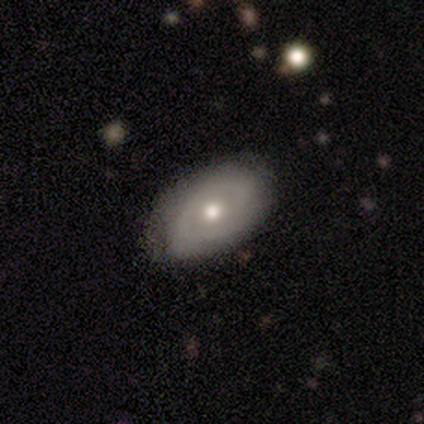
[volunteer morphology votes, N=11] A featured or disk galaxy (55%) with no bar (100%), 2 (33%, tied with 3 and can't tell) medium (67%) spiral arms (50%, tied with no) and a moderate central bulge (67%).

Vote fractions:
- Smooth or featured? featured or disk: 55% / smooth: 45% / star or artifact: 0%
- Edge-on disk? no: 100% / yes: 0%
- Bar? no: 100% / strong: 0% / weak: 0%
- Spiral arms? yes: 50% (tied) / no: 50% (tied)
- Spiral winding? medium: 67% / tight: 33% / loose: 0%
- Spiral arm count? 2: 33% (tied) / 3: 33% (tied) / can't tell: 33% (tied) / 1: 0% / 4: 0% / more than 4: 0%
- Bulge size? moderate: 67% / large: 17% / small: 17% / dominant: 0% / none: 0%
- Merging? none: 82% / minor disturbance: 18% / major disturbance: 0% / merger: 0%